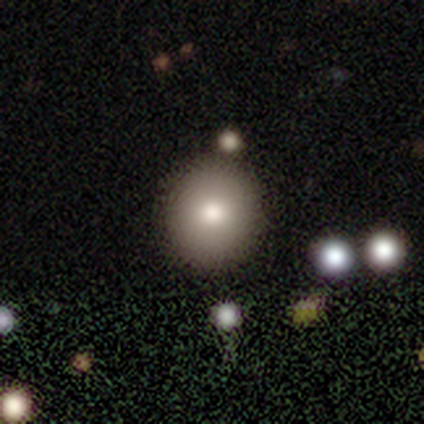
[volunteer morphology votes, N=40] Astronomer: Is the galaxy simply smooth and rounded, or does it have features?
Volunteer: smooth — 78%.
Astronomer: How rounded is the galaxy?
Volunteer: round — 94%.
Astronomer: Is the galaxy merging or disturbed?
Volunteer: none — 67%.